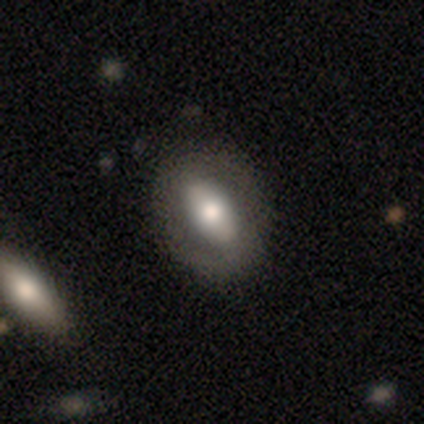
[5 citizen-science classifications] Smooth or featured? 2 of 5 (40%, tied with featured or disk) said smooth. How rounded? 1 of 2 (50%, tied with in between) said round. Merging? 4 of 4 (100%) said none.